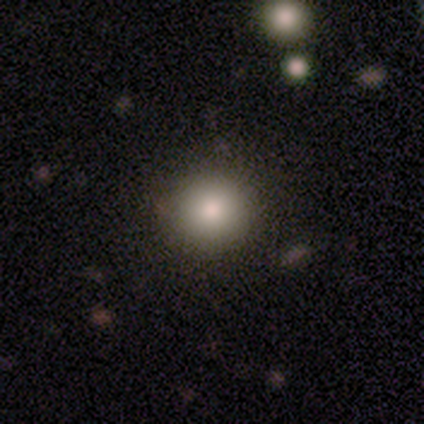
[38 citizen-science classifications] smooth_or_featured: smooth (p=0.92) [alt: star or artifact p=0.05]
how_rounded: round (p=0.97) [alt: in between p=0.03]
merging: none (p=0.86) [alt: minor disturbance p=0.11]